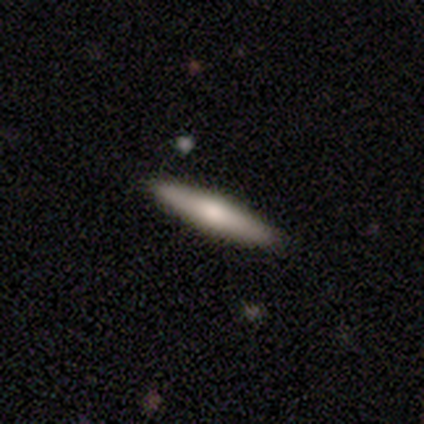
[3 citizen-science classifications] smooth-or-featured: smooth: 67% | featured or disk: 33% | star or artifact: 0%
  how-rounded: cigar-shaped: 100% | round: 0% | in between: 0%
  merging: none: 100% | minor disturbance: 0% | major disturbance: 0% | merger: 0%